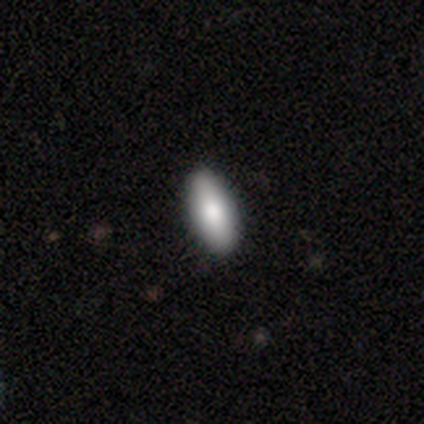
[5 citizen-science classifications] Smooth or featured? smooth (80%)
How rounded? in between (75%)
Merging? none (100%)